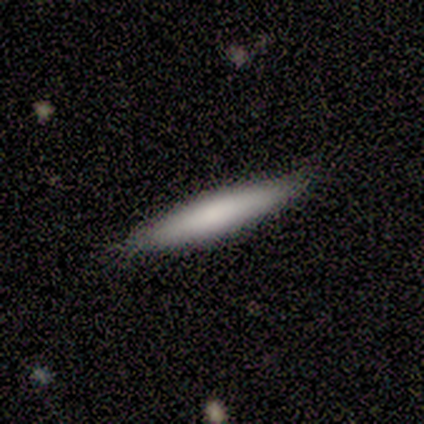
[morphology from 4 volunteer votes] Smooth or featured? smooth (75%)
How rounded? cigar-shaped (100%)
Merging? none (75%)